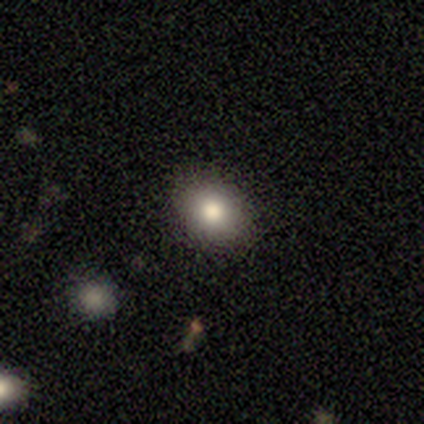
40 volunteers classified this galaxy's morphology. Volunteers were most divided on "how rounded" (2-way tie): round: 50%, in between: 50%, cigar-shaped: 0%. More confident: merging — none (91%); smooth or featured — smooth (65%).